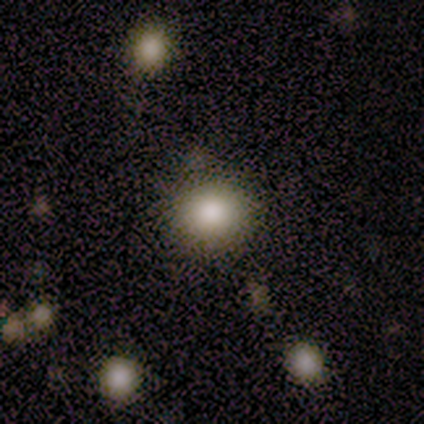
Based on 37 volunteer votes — Smooth or featured?
  - smooth: 81% *
  - star or artifact: 19%
  - featured or disk: 0%
How rounded?
  - round: 90% *
  - in between: 10%
  - cigar-shaped: 0%
Merging?
  - none: 83% *
  - minor disturbance: 13%
  - merger: 3%
  - major disturbance: 0%